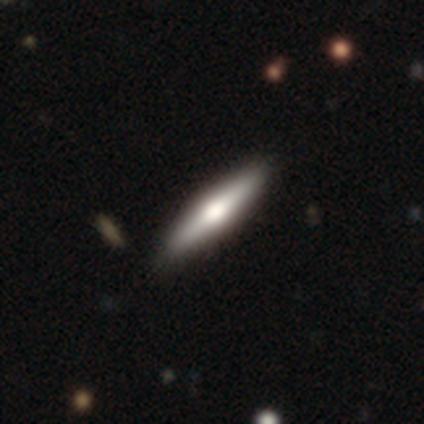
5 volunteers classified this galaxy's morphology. smooth_or_featured: featured or disk (p=0.80) [alt: smooth p=0.20]
disk_edge_on: yes (p=1.00)
edge_on_bulge: rounded (p=0.75) [alt: boxy p=0.25]
merging: none (p=0.80) [alt: minor disturbance p=0.20]